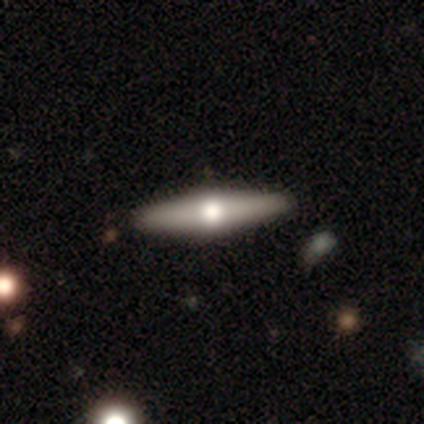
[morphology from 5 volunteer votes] Overall: featured or disk (60%; smooth 40%). Edge-on disk: yes (100%). Edge-on bulge: rounded (100%). Merging: none (100%).